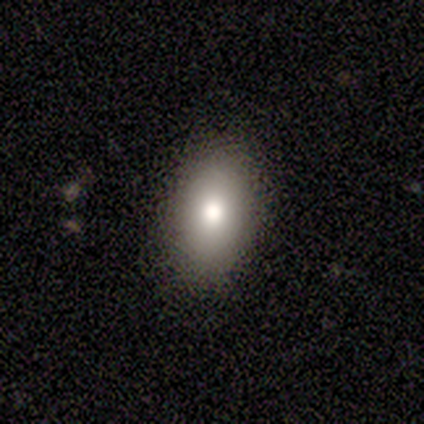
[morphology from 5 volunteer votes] Overall: smooth (80%). How rounded: in between (100%). Merging: none (100%).